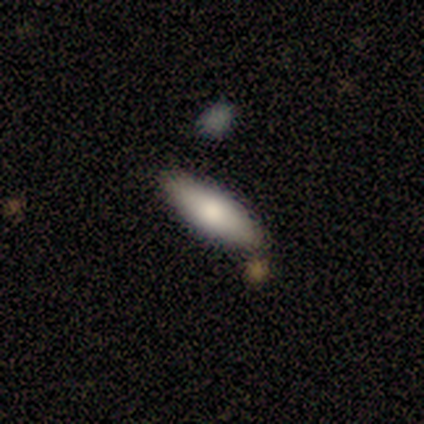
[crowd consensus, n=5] Smooth or featured? 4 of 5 (80%) said smooth. How rounded? 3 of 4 (75%) said in between. Merging? 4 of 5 (80%) said none.